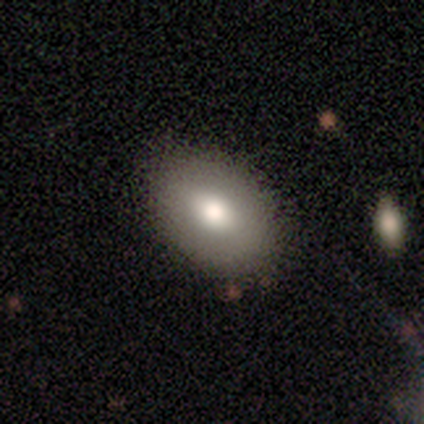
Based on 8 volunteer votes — Q: Smooth or featured?
A: smooth (88%); runner-up: featured or disk (12%)
Q: How rounded?
A: in between (86%); runner-up: round (14%)
Q: Merging?
A: none (88%); runner-up: merger (12%)